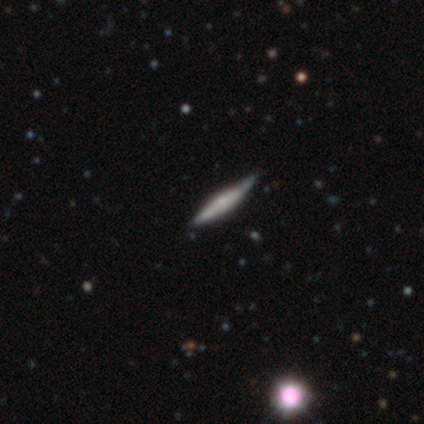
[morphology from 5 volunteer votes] featured or disk 60%, smooth 40%, star or artifact 0%. Down the decision tree: edge-on disk — yes (100%); edge-on bulge — rounded (67%); merging — none (60%).